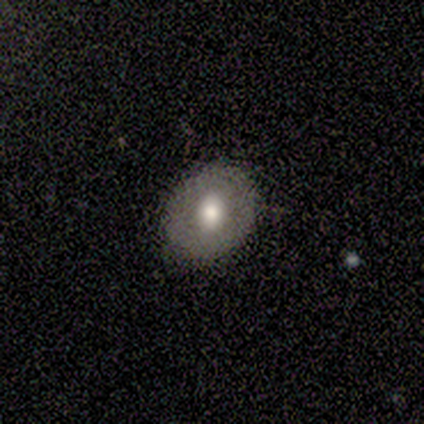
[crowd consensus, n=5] Overall: smooth (80%). How rounded: round (50%, tied with in between). Merging: none (100%).